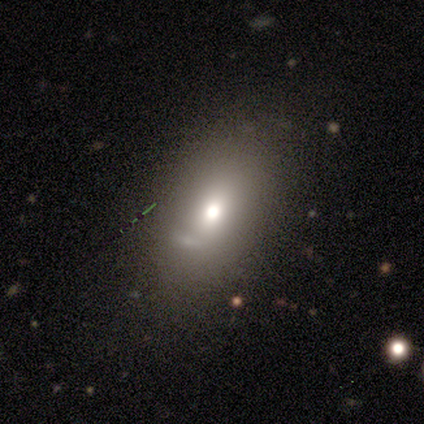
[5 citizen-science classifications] Smooth or featured? 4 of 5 (80%) said featured or disk. Edge-on disk? 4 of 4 (100%) said no. Bar? 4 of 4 (100%) said no. Spiral arms? 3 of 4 (75%) said no. Bulge size? 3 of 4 (75%) said moderate. Merging? 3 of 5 (60%) said none.